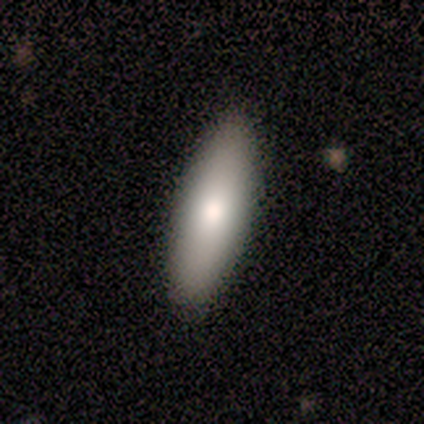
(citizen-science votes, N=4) A smooth galaxy with no disk features (50%) that is in between round and cigar-shaped (50%, tied with cigar-shaped).

Vote fractions:
- Smooth or featured? smooth: 50% / featured or disk: 25% / star or artifact: 25%
- How rounded? in between: 50% (tied) / cigar-shaped: 50% (tied) / round: 0%
- Merging? none: 100% / minor disturbance: 0% / major disturbance: 0% / merger: 0%